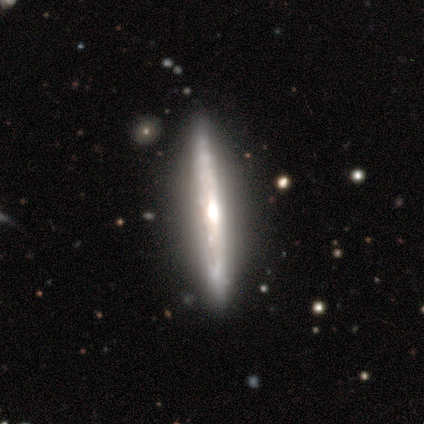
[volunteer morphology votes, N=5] This is clearly a featured or disk galaxy (80%). It is likely viewed edge-on (75%). Edge-on bulge: clearly rounded (100%). Merging: clearly none (80%).